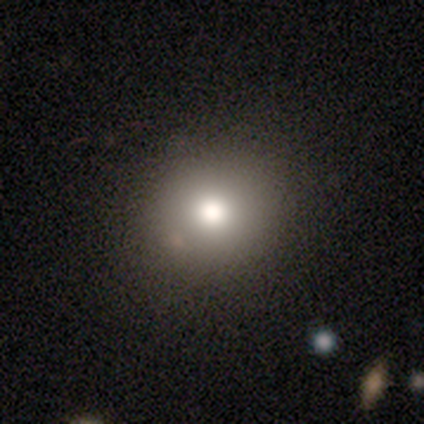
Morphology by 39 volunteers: This appears to be a smooth galaxy with no disk features (72%) that is round (89%). Merging: none (54%).